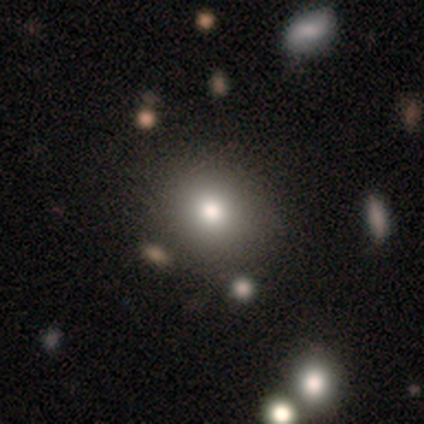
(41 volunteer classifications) This appears to be a smooth galaxy with no disk features (90%) that is round (86%). Merging: none (74%).